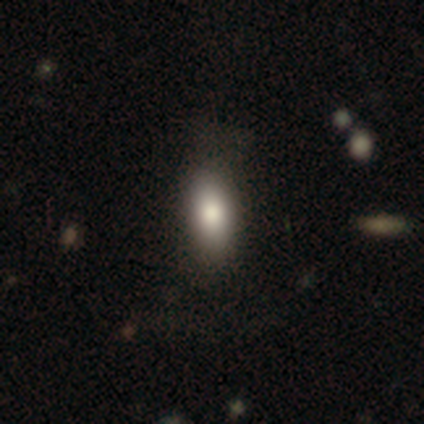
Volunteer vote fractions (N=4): Volunteers were most divided on "how rounded": in between: 67%, cigar-shaped: 33%, round: 0%. More confident: merging — none (100%); smooth or featured — smooth (75%).